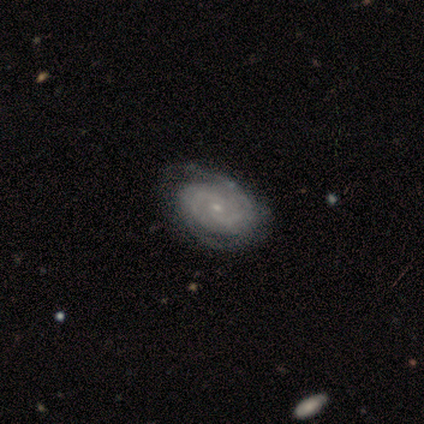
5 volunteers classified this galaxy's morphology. Smooth or featured?
  - featured or disk: 100% *
  - smooth: 0%
  - star or artifact: 0%
Edge-on disk?
  - no: 80% *
  - yes: 20%
Bar?
  - no: 100% *
  - strong: 0%
  - weak: 0%
Spiral arms?
  - yes: 100% *
  - no: 0%
Spiral winding?
  - tight: 75% *
  - medium: 25%
  - loose: 0%
Spiral arm count?
  - 2: 50% * (tied)
  - can't tell: 50% * (tied)
  - 1: 0%
  - 3: 0%
  - 4: 0%
  - more than 4: 0%
Bulge size?
  - small: 75% *
  - none: 25%
  - dominant: 0%
  - large: 0%
  - moderate: 0%
Merging?
  - none: 60% *
  - merger: 40%
  - minor disturbance: 0%
  - major disturbance: 0%